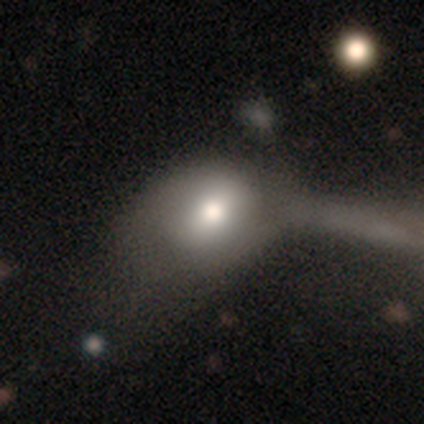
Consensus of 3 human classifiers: smooth-or-featured: featured or disk: 67% | smooth: 33% | star or artifact: 0%
  disk-edge-on: no: 100% | yes: 0%
    bar: weak: 100% | strong: 0% | no: 0%
    has-spiral-arms: yes: 50% (tied) | no: 50% (tied)
      spiral-winding: tight: 100% | medium: 0% | loose: 0%
      spiral-arm-count: 1: 100% | 2: 0% | 3: 0% | 4: 0% | more than 4: 0% | can't tell: 0%
    bulge-size: large: 50% (tied) | moderate: 50% (tied) | dominant: 0% | small: 0% | none: 0%
  merging: merger: 67% | major disturbance: 33% | none: 0% | minor disturbance: 0%